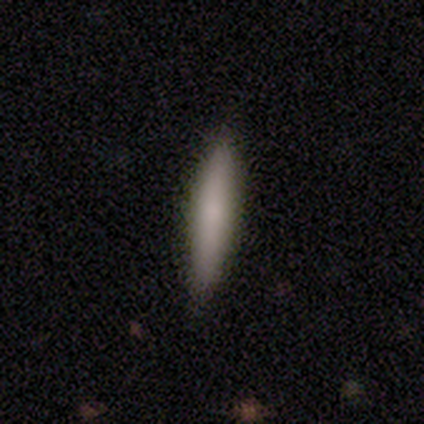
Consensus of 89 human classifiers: This is clearly a smooth galaxy (83%). How rounded: clearly cigar-shaped (91%). Merging: clearly none (87%).